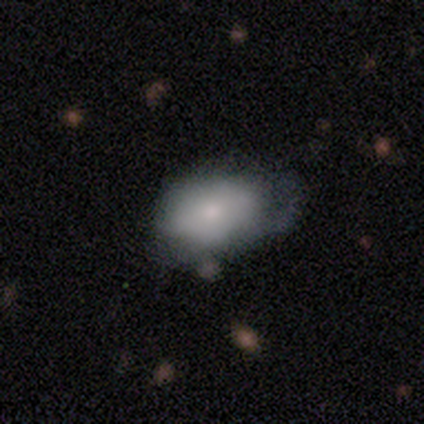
A smooth galaxy with no disk features (72%) that is in between round and cigar-shaped (97%). Merging: minor disturbance (40%).